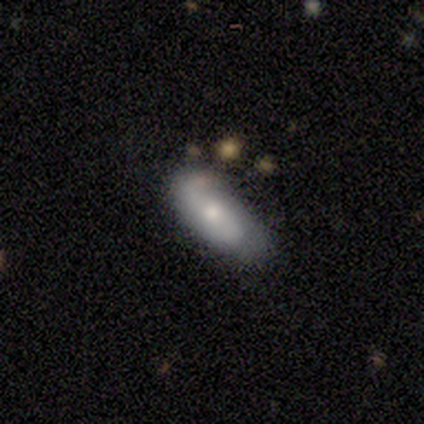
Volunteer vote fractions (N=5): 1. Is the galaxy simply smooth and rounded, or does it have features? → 80% smooth, 20% featured or disk, 0% star or artifact.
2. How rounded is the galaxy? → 75% in between, 25% cigar-shaped, 0% round.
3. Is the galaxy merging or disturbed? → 60% none, 20% minor disturbance, 20% major disturbance, 0% merger.